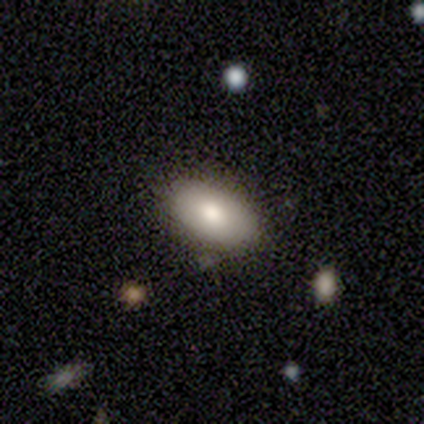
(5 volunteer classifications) Smooth or featured: smooth — 80% (featured or disk — 20%)
How rounded: in between — 100%
Merging: none — 60% (minor disturbance — 40%)